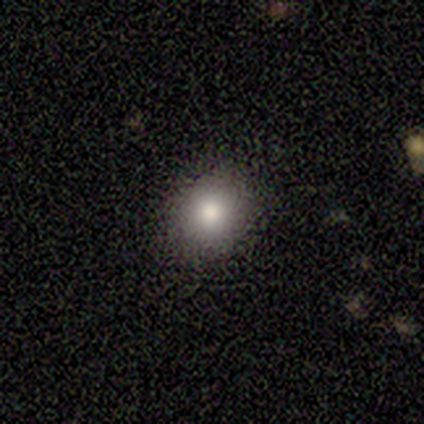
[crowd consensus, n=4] This is clearly a smooth galaxy (100%). How rounded: likely round (75%). Merging: likely none (75%).